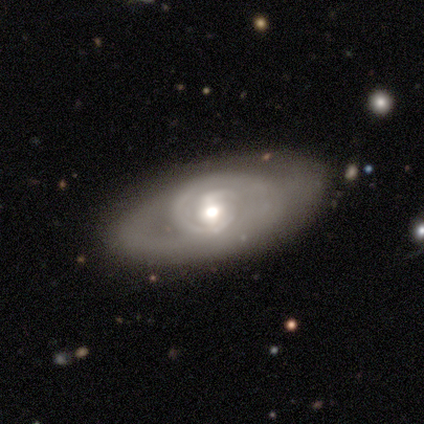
Q: Smooth or featured?
A: featured or disk (100%)
Q: Edge-on disk?
A: no (100%)
Q: Bar?
A: weak (50%); runner-up: strong (25%)
Q: Spiral arms?
A: yes (75%); runner-up: no (25%)
Q: Spiral winding?
A: tight (100%)
Q: Spiral arm count?
A: 2 (100%)
Q: Bulge size?
A: moderate (75%); runner-up: large (25%)
Q: Merging?
A: none (100%)